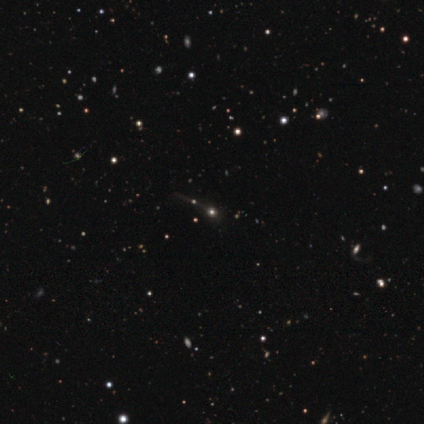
smooth-or-featured: star or artifact: 57% | smooth: 38% | featured or disk: 5%